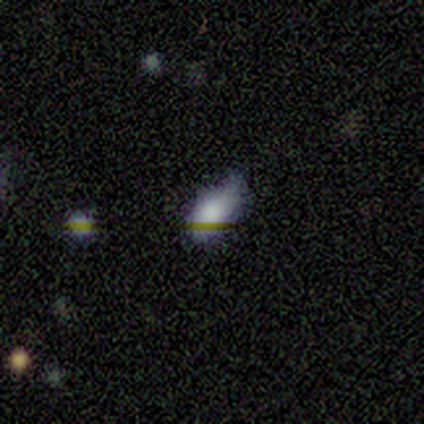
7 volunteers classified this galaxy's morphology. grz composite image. It shows a smooth galaxy with no disk features (86%) that is in between round and cigar-shaped (83%). Merging: minor disturbance (67%).